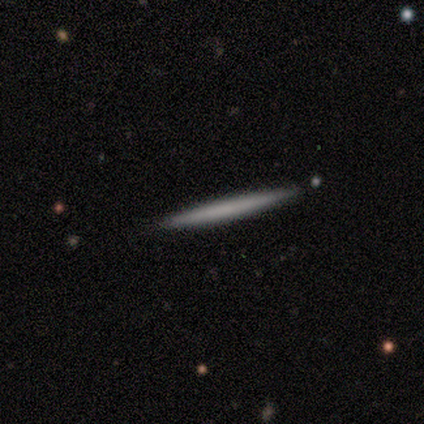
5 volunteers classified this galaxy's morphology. This appears to be a featured or disk galaxy (60%) viewed edge-on (100%) with no central bulge (67%). Merging: none (80%).